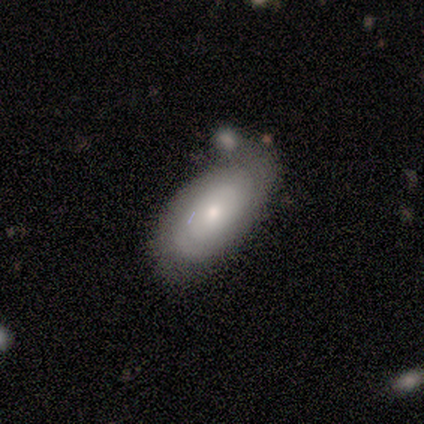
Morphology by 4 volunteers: type=smooth (50%, tied with featured or disk); roundness=round (50%, tied with in between); merging=none (75%).